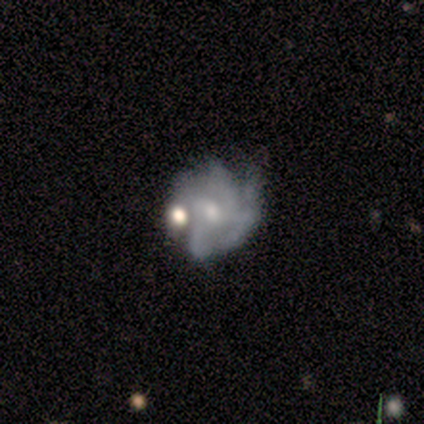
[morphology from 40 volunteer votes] Smooth or featured: featured or disk — 82% (smooth — 12%)
Edge-on disk: no — 100%
Bar: no — 73% (weak — 27%)
Spiral arms: yes — 79% (no — 21%)
Spiral winding: tight — 46% (medium — 35%)
Spiral arm count: can't tell — 42% (4 — 31%)
Bulge size: moderate — 52% (small — 48%)
Merging: none — 34% (minor disturbance — 26%)